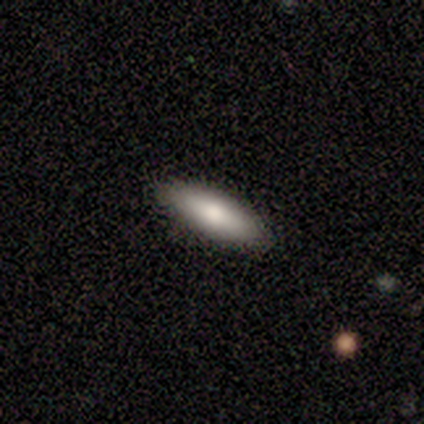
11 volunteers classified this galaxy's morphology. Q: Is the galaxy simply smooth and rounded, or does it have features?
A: smooth — 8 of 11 (73%).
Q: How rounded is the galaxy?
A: cigar-shaped — 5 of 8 (62%).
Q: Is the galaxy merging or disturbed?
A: none — 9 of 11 (82%).